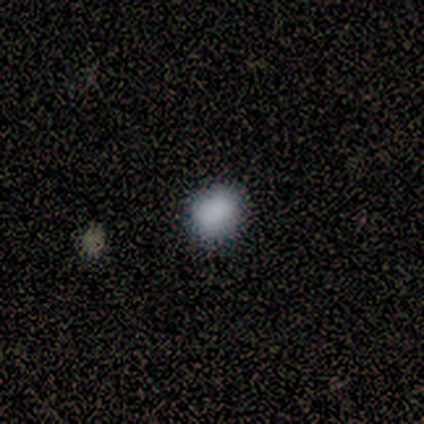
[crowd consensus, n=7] Smooth or featured: smooth — 100%
How rounded: round — 71% (in between — 29%)
Merging: none — 86% (minor disturbance — 14%)